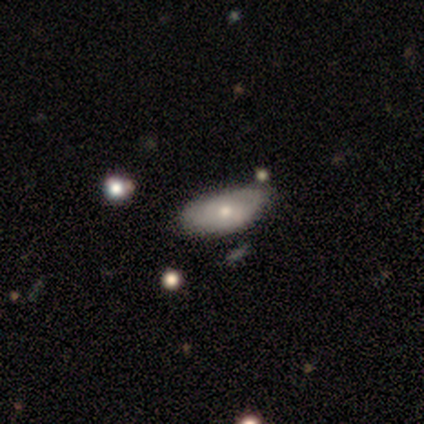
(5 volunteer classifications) Volunteers were most divided on "smooth or featured": smooth: 60%, featured or disk: 40%, star or artifact: 0%. More confident: how rounded — in between (100%); merging — none (60%).